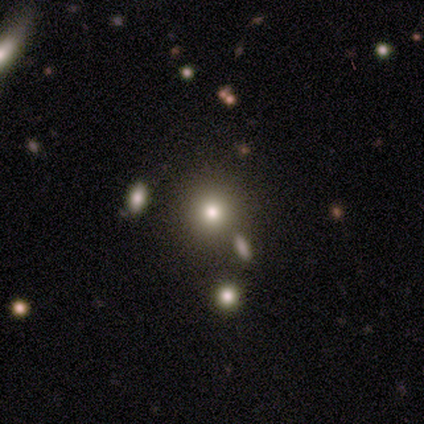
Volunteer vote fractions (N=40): A smooth galaxy with no disk features (70%) that is round (82%). Merging: none (80%).